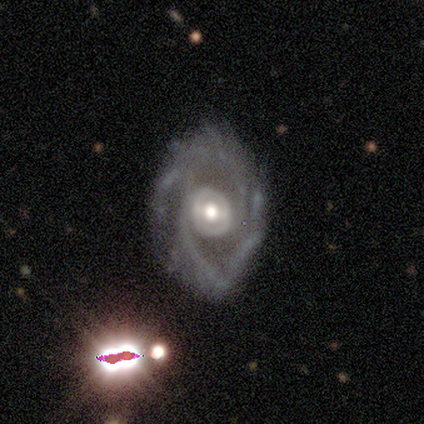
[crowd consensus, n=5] Volunteers were most divided on "spiral winding" (2-way tie): medium: 50%, loose: 50%, tight: 0%; "spiral arm count" (2-way tie): more than 4: 50%, can't tell: 50%, 1: 0%, 2: 0%, 3: 0%, 4: 0%. More confident: bulge size — moderate (100%); smooth or featured — featured or disk (80%); edge-on disk — no (75%); bar — weak (67%); spiral arms — yes (67%); merging — none (60%).